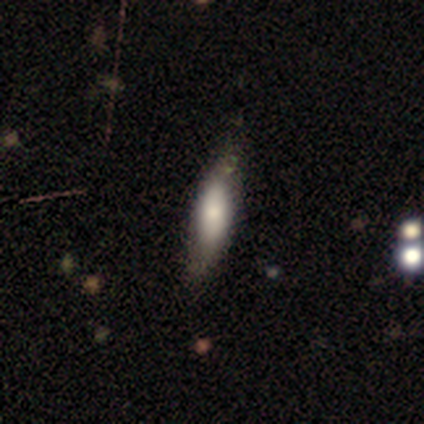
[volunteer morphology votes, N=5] Smooth or featured? smooth (60%)
How rounded? in between (67%)
Merging? none (67%)